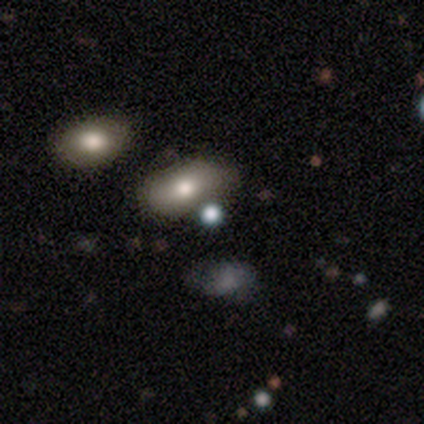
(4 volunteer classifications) A smooth galaxy with no disk features (75%) that is round (100%). Merging: none (100%).